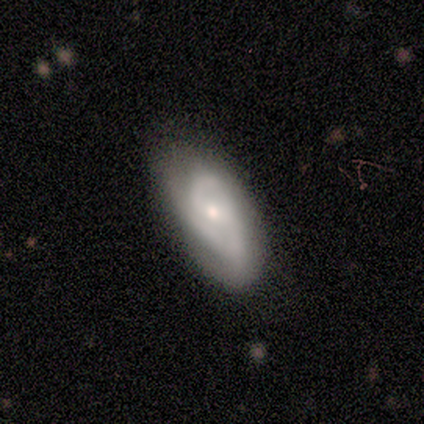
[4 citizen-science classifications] Overall: smooth (75%). How rounded: in between (100%). Merging: none (75%).